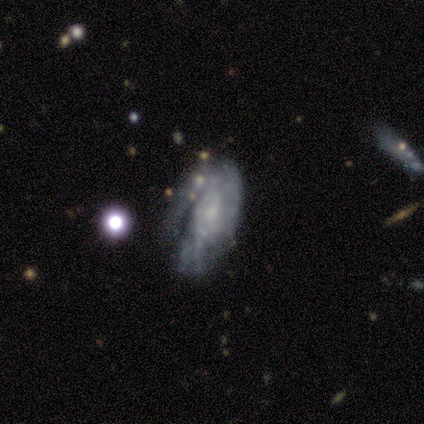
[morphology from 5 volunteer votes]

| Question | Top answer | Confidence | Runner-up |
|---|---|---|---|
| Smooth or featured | featured or disk | 80% | smooth (20%) |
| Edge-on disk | no | 75% | yes (25%) |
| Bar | no | 100% | — |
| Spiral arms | yes | 67% | no (33%) |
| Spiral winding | medium | 100% | — |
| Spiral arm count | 1 | 50% | tied: can't tell (50%) |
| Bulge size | small | 67% | large (33%) |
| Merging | none | 80% | merger (20%) |